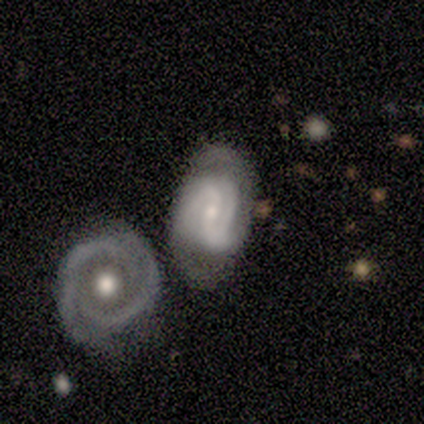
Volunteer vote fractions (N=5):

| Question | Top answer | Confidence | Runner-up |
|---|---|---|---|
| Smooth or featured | featured or disk | 100% | — |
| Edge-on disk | no | 100% | — |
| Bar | weak | 80% | strong (20%) |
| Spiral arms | yes | 100% | — |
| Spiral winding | medium | 60% | tight (40%) |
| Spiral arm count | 2 | 80% | 3 (20%) |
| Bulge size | small | 60% | moderate (40%) |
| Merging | none | 100% | — |